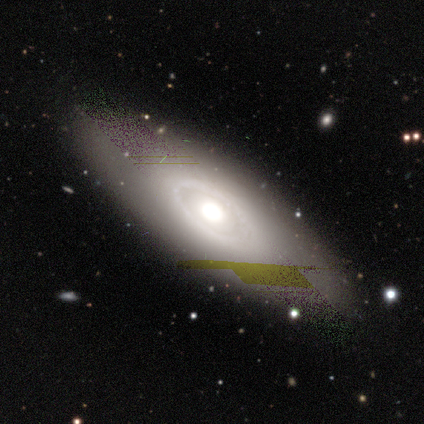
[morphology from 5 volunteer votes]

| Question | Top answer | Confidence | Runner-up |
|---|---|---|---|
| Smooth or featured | featured or disk | 60% | smooth (40%) |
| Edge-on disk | no | 67% | yes (33%) |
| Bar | no | 100% | — |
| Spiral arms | no | 100% | — |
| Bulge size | large | 50% | tied: moderate (50%) |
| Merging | none | 60% | minor disturbance (20%) |